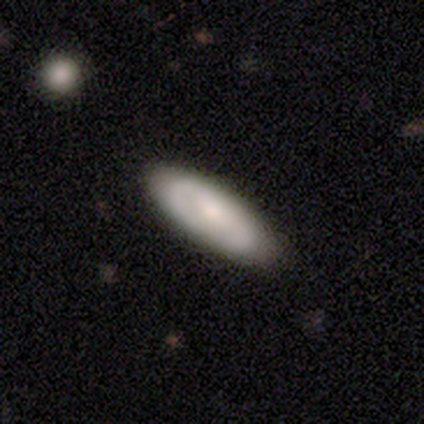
Morphology: type=smooth (57%); roundness=in between (60%); merging=none (80%).